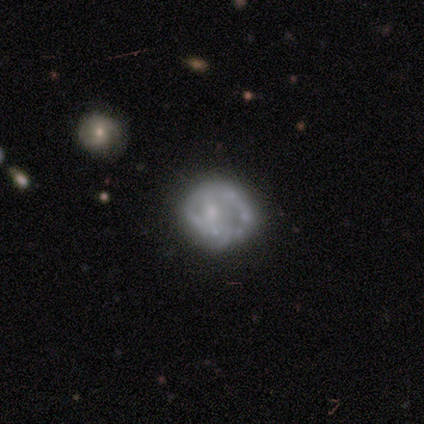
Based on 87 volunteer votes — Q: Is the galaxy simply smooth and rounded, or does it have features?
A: featured or disk — 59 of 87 (68%).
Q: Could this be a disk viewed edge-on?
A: no — 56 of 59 (95%).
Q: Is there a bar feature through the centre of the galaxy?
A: no — 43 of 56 (77%).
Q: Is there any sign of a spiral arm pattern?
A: no — 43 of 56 (77%).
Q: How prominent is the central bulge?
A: small — 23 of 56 (41%).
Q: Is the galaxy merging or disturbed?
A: none — 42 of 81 (52%).